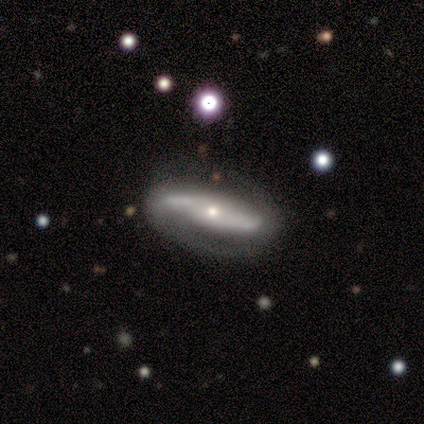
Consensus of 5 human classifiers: A featured or disk galaxy (60%) with no bar (67%), 2 (67%) tight (67%) spiral arms (100%) and a small central bulge (67%). Merging: none (80%).